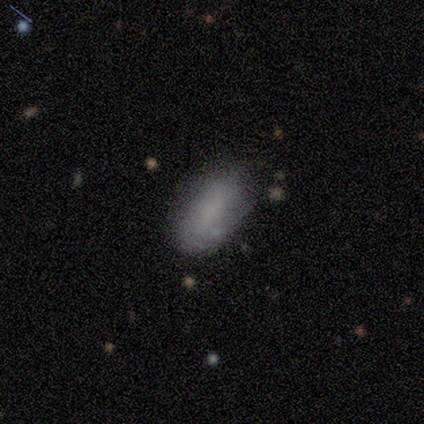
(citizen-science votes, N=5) Overall: smooth (60%; featured or disk 40%). How rounded: in between (100%). Merging: minor disturbance (80%).